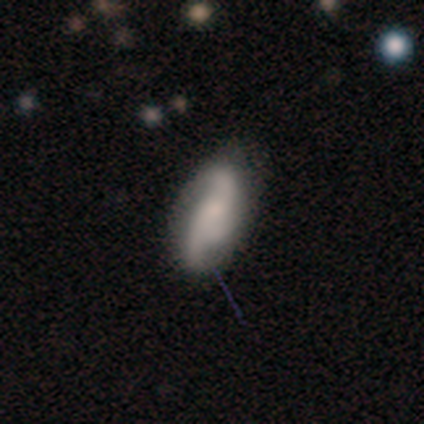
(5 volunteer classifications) Smooth or featured? 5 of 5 (100%) said featured or disk. Edge-on disk? 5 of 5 (100%) said no. Bar? 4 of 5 (80%) said no. Spiral arms? 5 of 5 (100%) said yes. Spiral winding? 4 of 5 (80%) said loose. Spiral arm count? 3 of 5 (60%) said 2. Bulge size? 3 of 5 (60%) said moderate. Merging? 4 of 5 (80%) said none.